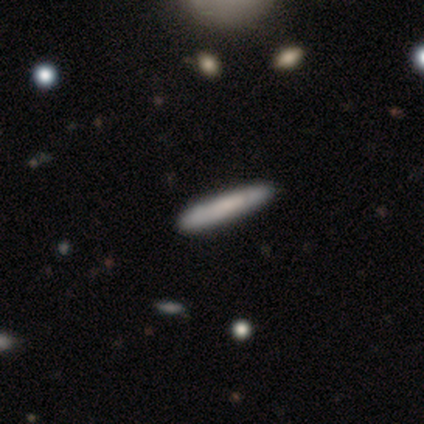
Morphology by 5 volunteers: type=smooth (80%); roundness=cigar-shaped (75%); merging=none (80%).